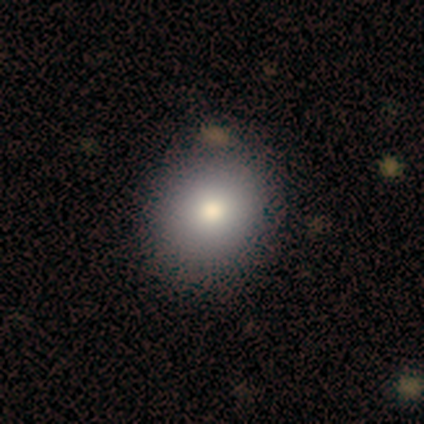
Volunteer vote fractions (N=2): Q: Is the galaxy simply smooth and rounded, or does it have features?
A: smooth — 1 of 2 (50%, tied with star or artifact).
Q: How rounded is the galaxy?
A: round — 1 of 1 (100%).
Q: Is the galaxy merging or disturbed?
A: none — 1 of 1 (100%).